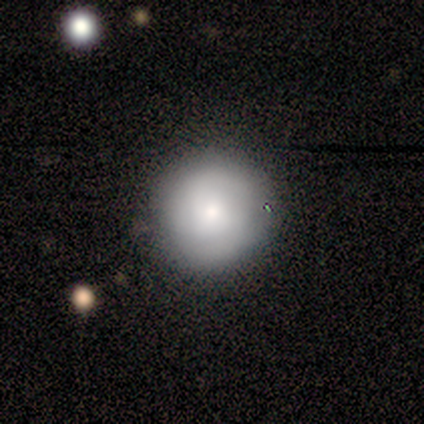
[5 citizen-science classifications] smooth 60%, featured or disk 20%, star or artifact 20%. Down the decision tree: how rounded — round (100%); merging — none (100%).